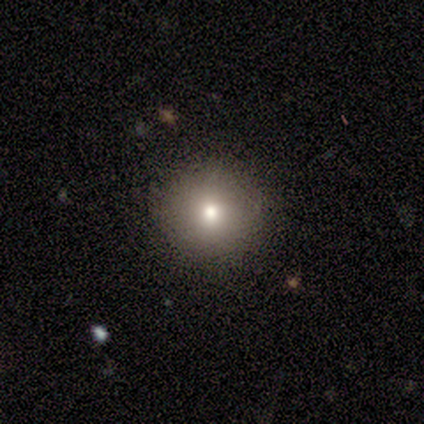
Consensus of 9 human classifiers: This appears to be a smooth galaxy with no disk features (78%) that is round (100%). Merging: none (100%).